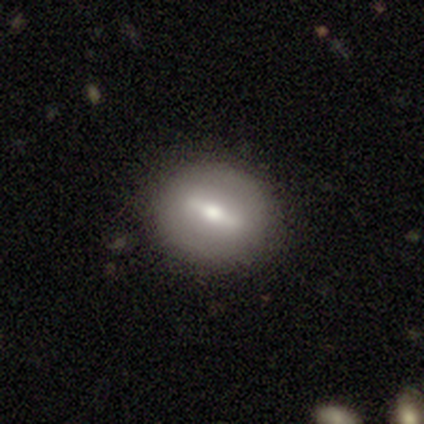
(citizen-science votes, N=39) smooth-or-featured: smooth: 62% | featured or disk: 33% | star or artifact: 5%
  how-rounded: round: 58% | in between: 42% | cigar-shaped: 0%
  merging: none: 92% | minor disturbance: 8% | major disturbance: 0% | merger: 0%